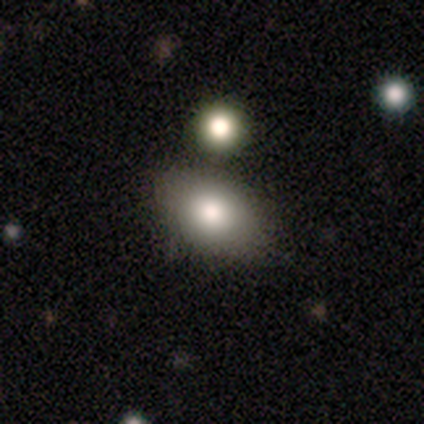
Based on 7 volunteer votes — A smooth galaxy with no disk features (86%) that is in between round and cigar-shaped (83%). Merging: none (83%).